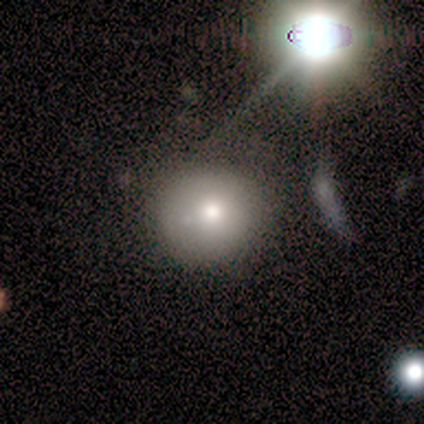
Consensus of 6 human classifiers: Volunteers were most divided on "smooth or featured" (3-way tie): smooth: 33%, featured or disk: 33%, star or artifact: 33%; "how rounded" (2-way tie): round: 50%, in between: 50%, cigar-shaped: 0%; "merging" (2-way tie): none: 50%, minor disturbance: 50%, major disturbance: 0%, merger: 0%.